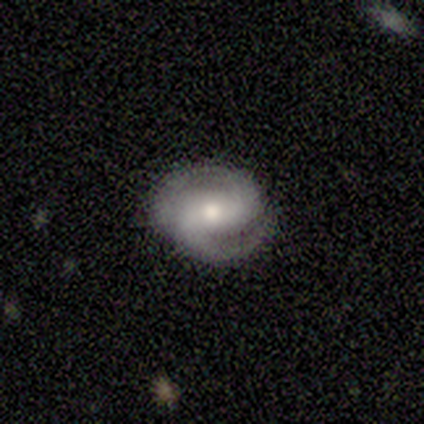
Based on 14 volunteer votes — smooth-or-featured: featured or disk: 79% | smooth: 14% | star or artifact: 7%
  disk-edge-on: no: 100% | yes: 0%
    bar: strong: 36% (tied) | weak: 36% (tied) | no: 27%
    has-spiral-arms: yes: 100% | no: 0%
      spiral-winding: tight: 45% (tied) | medium: 45% (tied) | loose: 9%
      spiral-arm-count: 2: 82% | 1: 9% | can't tell: 9% | 3: 0% | 4: 0% | more than 4: 0%
    bulge-size: moderate: 55% | small: 36% | dominant: 9% | large: 0% | none: 0%
  merging: none: 77% | minor disturbance: 23% | major disturbance: 0% | merger: 0%